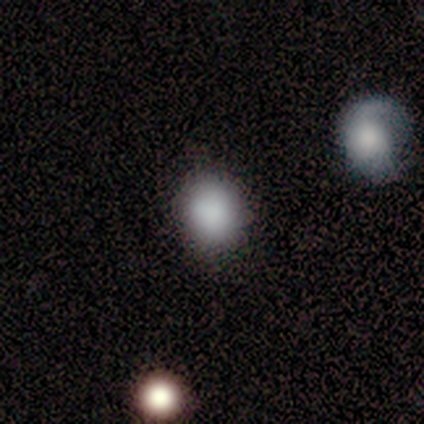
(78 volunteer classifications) Smooth or featured: smooth — 88% (featured or disk — 6%)
How rounded: round — 81% (in between — 19%)
Merging: none — 57% (merger — 9%)